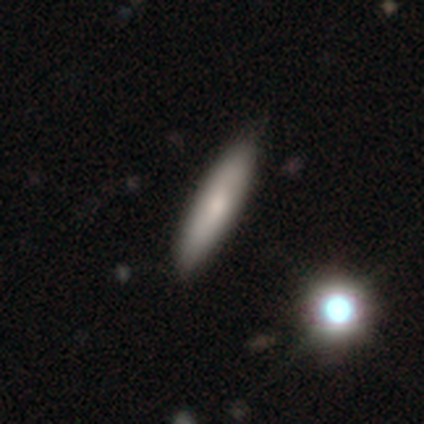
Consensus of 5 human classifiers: Smooth or featured: smooth — 100%
How rounded: cigar-shaped — 100%
Merging: none — 80% (merger — 20%)